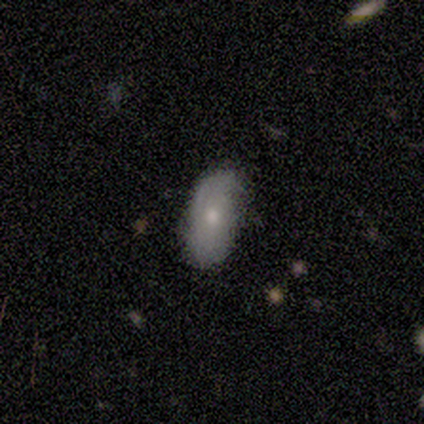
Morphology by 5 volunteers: A smooth galaxy with no disk features (60%) that is in between round and cigar-shaped (100%).

Vote fractions:
- Smooth or featured? smooth: 60% / featured or disk: 40% / star or artifact: 0%
- How rounded? in between: 100% / round: 0% / cigar-shaped: 0%
- Merging? none: 40% (tied) / minor disturbance: 40% (tied) / major disturbance: 20% / merger: 0%